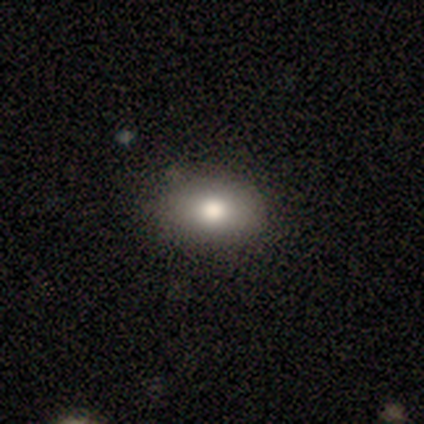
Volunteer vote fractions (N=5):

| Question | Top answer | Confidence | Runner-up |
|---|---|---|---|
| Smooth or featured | smooth | 40% | tied: featured or disk (40%) |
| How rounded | round | 50% | tied: in between (50%) |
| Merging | none | 75% | minor disturbance (25%) |